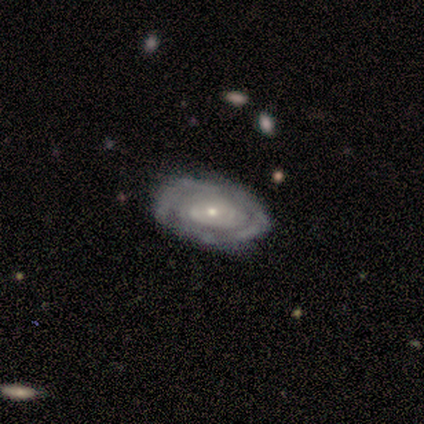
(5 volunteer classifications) Q: Smooth or featured?
A: featured or disk (80%); runner-up: smooth (20%)
Q: Edge-on disk?
A: no (100%)
Q: Bar?
A: no (100%)
Q: Spiral arms?
A: yes (75%); runner-up: no (25%)
Q: Spiral winding?
A: tight (100%)
Q: Spiral arm count?
A: can't tell (67%); runner-up: 3 (33%)
Q: Bulge size?
A: moderate (50%); tied with: small (50%)
Q: Merging?
A: none (60%); runner-up: minor disturbance (40%)